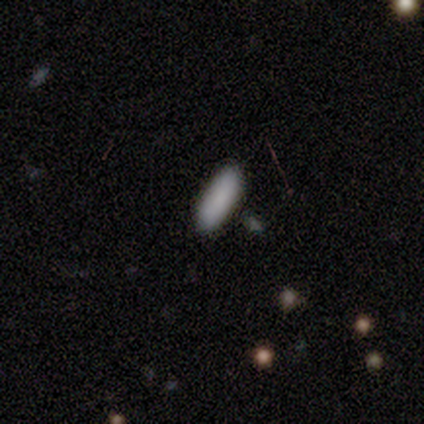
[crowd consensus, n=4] Smooth or featured?
  - smooth: 75% *
  - featured or disk: 25%
  - star or artifact: 0%
How rounded?
  - in between: 67% *
  - cigar-shaped: 33%
  - round: 0%
Merging?
  - none: 100% *
  - minor disturbance: 0%
  - major disturbance: 0%
  - merger: 0%